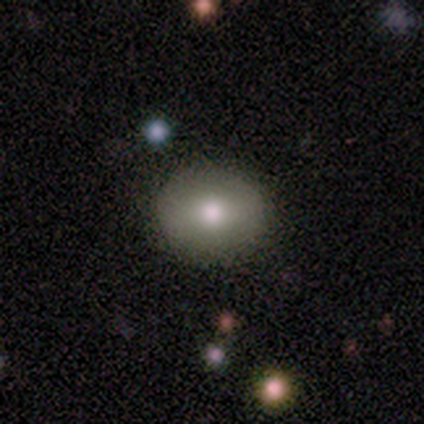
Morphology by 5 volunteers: A smooth galaxy with no disk features (80%) that is round (50%, tied with in between). Merging: none (80%).